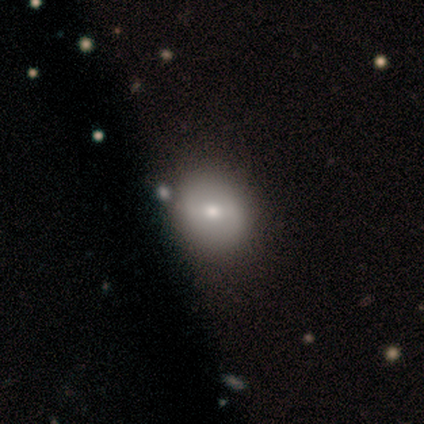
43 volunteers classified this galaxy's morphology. A smooth galaxy with no disk features (56%) that is round (71%).

Vote fractions:
- Smooth or featured? smooth: 56% / featured or disk: 26% / star or artifact: 19%
- How rounded? round: 71% / in between: 29% / cigar-shaped: 0%
- Merging? none: 77% / major disturbance: 6% / minor disturbance: 3% / merger: 3%